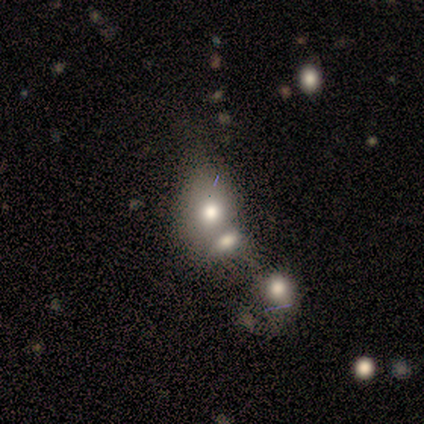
smooth-or-featured: smooth: 60% | featured or disk: 40% | star or artifact: 0%
  how-rounded: in between: 67% | round: 33% | cigar-shaped: 0%
  merging: merger: 100% | none: 0% | minor disturbance: 0% | major disturbance: 0%